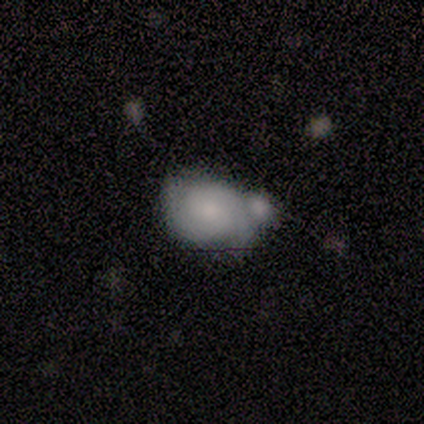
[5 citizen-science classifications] Volunteers were most divided on "bulge size" (2-way tie): moderate: 50%, small: 50%, dominant: 0%, large: 0%, none: 0%. Remaining: edge-on disk — no (100%); smooth or featured — featured or disk (80%); spiral arms — yes (75%); spiral winding — medium (67%); spiral arm count — 2 (67%); bar — no (50%); merging — merger (40%).